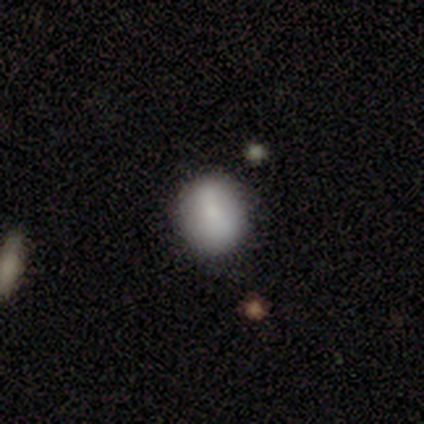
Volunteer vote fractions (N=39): Volunteers were most divided on "smooth or featured": smooth: 67%, featured or disk: 26%, star or artifact: 8%. More confident: how rounded — round (85%); merging — none (72%).